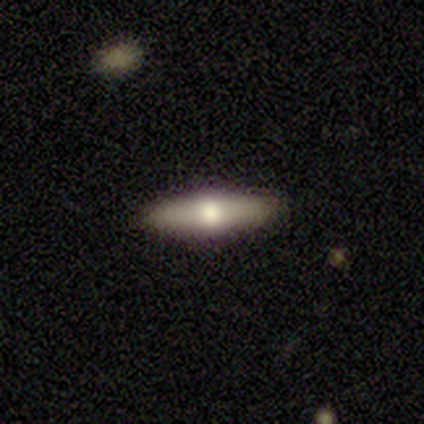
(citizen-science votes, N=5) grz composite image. It shows a featured or disk galaxy (60%) viewed edge-on (100%) with a rounded central bulge (100%). Merging: none (75%).